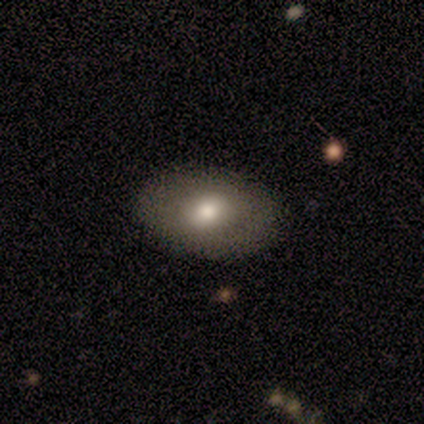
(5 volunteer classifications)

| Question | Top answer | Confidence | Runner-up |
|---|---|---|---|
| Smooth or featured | smooth | 80% | star or artifact (20%) |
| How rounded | in between | 75% | round (25%) |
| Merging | none | 100% | — |